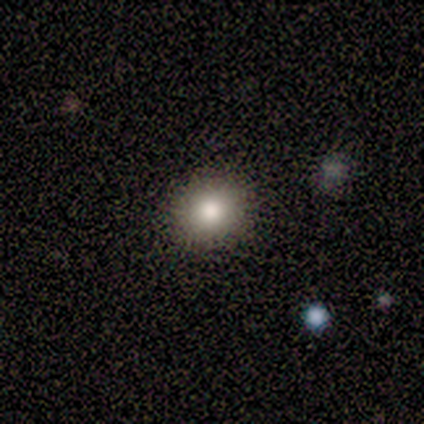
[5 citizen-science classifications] Smooth or featured? smooth (80%)
How rounded? round (50%, tied with in between)
Merging? none (60%)